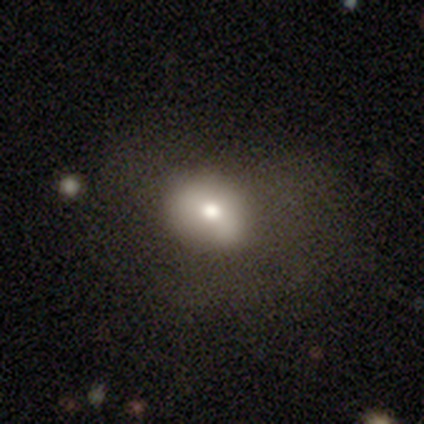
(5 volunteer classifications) smooth-or-featured: star or artifact: 60% | smooth: 20% | featured or disk: 20%